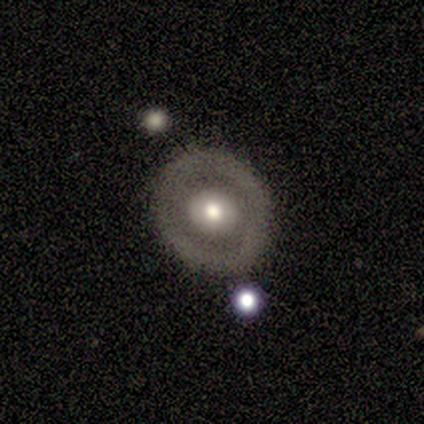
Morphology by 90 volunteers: A featured or disk galaxy (69%) with no bar (87%), no spiral arms (88%) and a moderate central bulge (63%). Merging: none (78%).